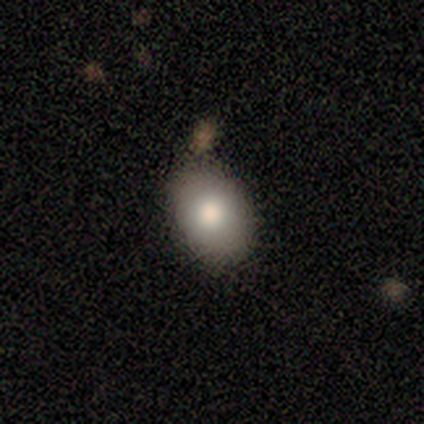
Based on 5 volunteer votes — Morphology: type=smooth (40%, tied with star or artifact); roundness=in between (100%); merging=none (100%).